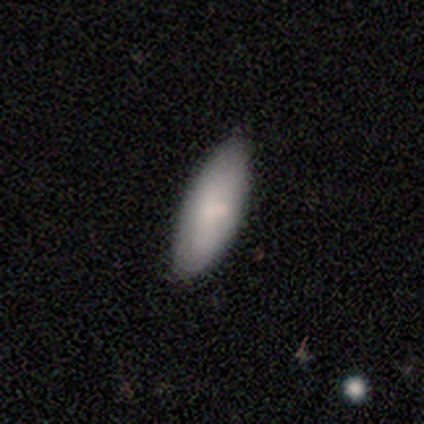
This is clearly a smooth galaxy (92%). How rounded: likely in between (65%). Merging: likely none (69%).